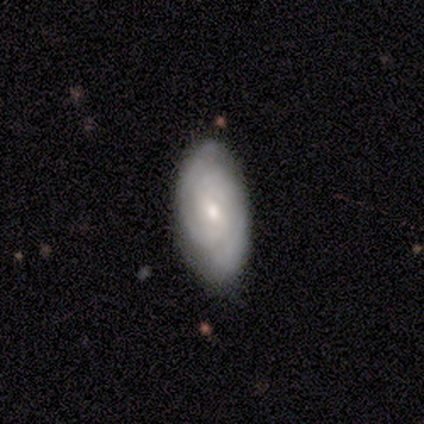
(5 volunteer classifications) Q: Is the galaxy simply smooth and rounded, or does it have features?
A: featured or disk — 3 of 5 (60%).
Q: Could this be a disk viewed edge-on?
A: no — 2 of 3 (67%).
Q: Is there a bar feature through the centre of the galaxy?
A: no — 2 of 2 (100%).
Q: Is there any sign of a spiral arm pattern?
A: yes — 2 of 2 (100%).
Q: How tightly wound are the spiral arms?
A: tight — 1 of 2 (50%, tied with medium).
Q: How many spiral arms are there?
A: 2 — 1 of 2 (50%, tied with can't tell).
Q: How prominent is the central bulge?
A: moderate — 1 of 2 (50%, tied with small).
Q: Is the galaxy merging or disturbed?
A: none — 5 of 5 (100%).